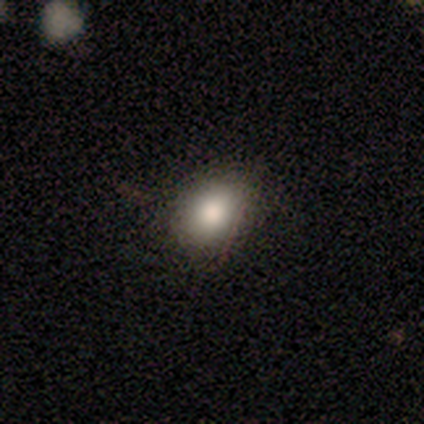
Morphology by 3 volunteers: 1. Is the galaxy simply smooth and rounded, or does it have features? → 100% smooth, 0% featured or disk, 0% star or artifact.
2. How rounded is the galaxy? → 67% round, 33% in between, 0% cigar-shaped.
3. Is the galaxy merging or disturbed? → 100% none, 0% minor disturbance, 0% major disturbance, 0% merger.